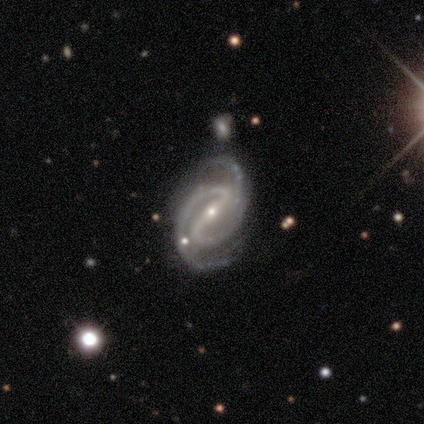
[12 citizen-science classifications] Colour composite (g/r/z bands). It shows a featured or disk galaxy (100%) with a strong bar (58%), 2 (92%) tight (67%) spiral arms (100%) and a small central bulge (92%). Merging: none (92%).